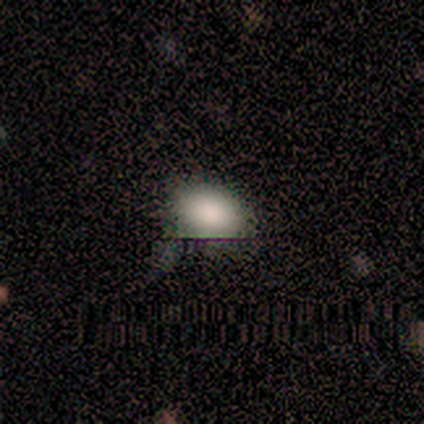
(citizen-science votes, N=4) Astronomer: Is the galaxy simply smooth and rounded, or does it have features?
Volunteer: smooth — 100%.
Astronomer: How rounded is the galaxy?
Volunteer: in between — 100%.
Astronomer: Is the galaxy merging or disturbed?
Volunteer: none — 100%.